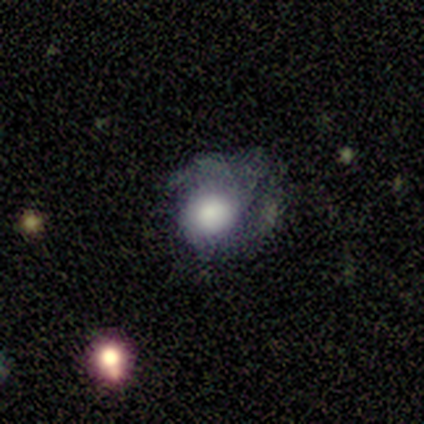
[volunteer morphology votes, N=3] Smooth or featured? 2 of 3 (67%) said featured or disk. Edge-on disk? 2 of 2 (100%) said no. Bar? 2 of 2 (100%) said no. Spiral arms? 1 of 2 (50%, tied with no) said yes. Spiral winding? 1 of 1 (100%) said tight. Spiral arm count? 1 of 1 (100%) said 2. Bulge size? 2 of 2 (100%) said large. Merging? 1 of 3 (33%, tied with minor disturbance and major disturbance) said none.